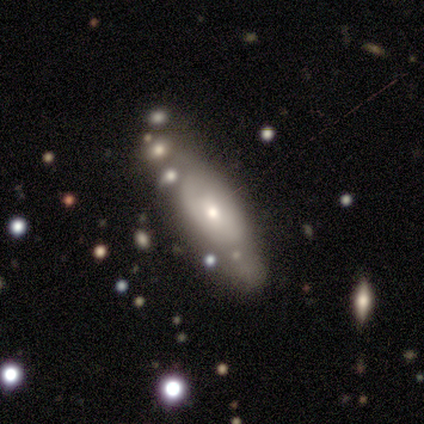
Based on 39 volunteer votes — smooth_or_featured: smooth (p=0.56) [alt: featured or disk p=0.38]
how_rounded: in between (p=0.59) [alt: cigar-shaped p=0.36]
merging: none (p=0.57) [alt: minor disturbance p=0.22]